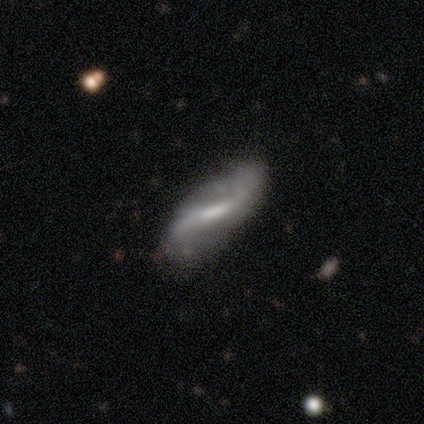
A featured or disk galaxy (92%) with a strong bar (59%), 2 (90%) loose (83%) spiral arms (94%) and no central bulge (34%).

Vote fractions:
- Smooth or featured? featured or disk: 92% / smooth: 5% / star or artifact: 2%
- Edge-on disk? no: 86% / yes: 14%
- Bar? strong: 59% / weak: 38% / no: 3%
- Spiral arms? yes: 94% / no: 6%
- Spiral winding? loose: 83% / medium: 17% / tight: 0%
- Spiral arm count? 2: 90% / can't tell: 7% / 1: 3% / 3: 0% / 4: 0% / more than 4: 0%
- Bulge size? none: 34% / moderate: 31% / small: 28% / large: 6% / dominant: 0%
- Merging? none: 51% / minor disturbance: 13% / major disturbance: 8% / merger: 5%